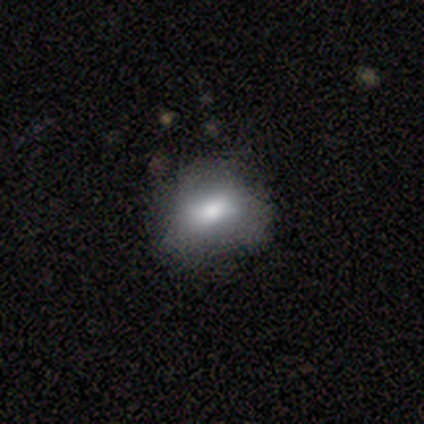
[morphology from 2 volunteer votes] smooth_or_featured: smooth (p=1.00)
how_rounded: in between (p=1.00)
merging: none (p=1.00)